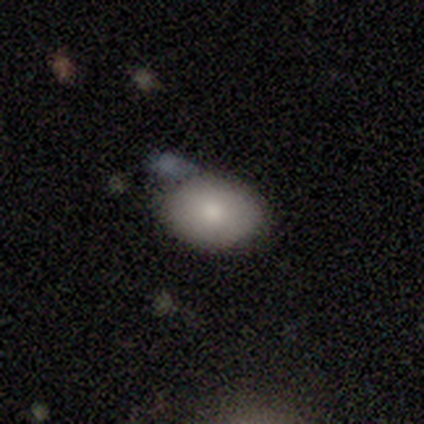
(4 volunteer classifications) A smooth galaxy with no disk features (75%) that is in between round and cigar-shaped (67%). Merging: none (75%).